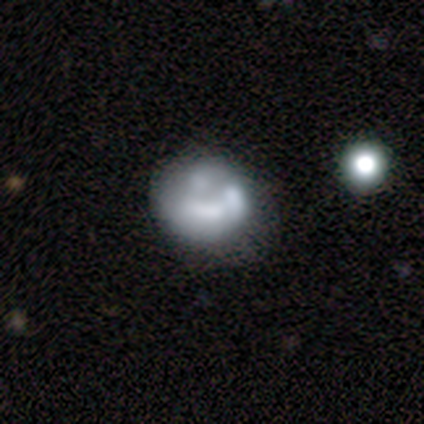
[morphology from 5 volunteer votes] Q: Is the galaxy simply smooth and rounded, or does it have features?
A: smooth — 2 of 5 (40%, tied with featured or disk).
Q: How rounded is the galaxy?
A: round — 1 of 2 (50%, tied with in between).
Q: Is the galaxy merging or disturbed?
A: minor disturbance — 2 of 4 (50%).